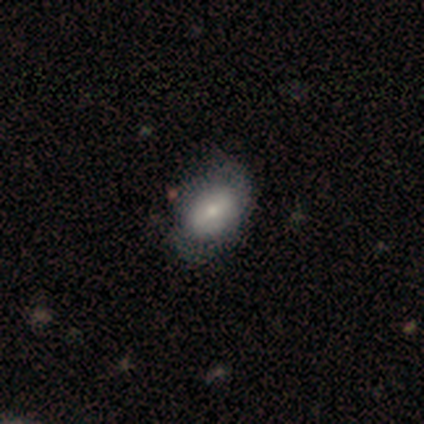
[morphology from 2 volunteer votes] Q: Smooth or featured?
A: smooth (100%)
Q: How rounded?
A: round (50%); tied with: in between (50%)
Q: Merging?
A: none (100%)